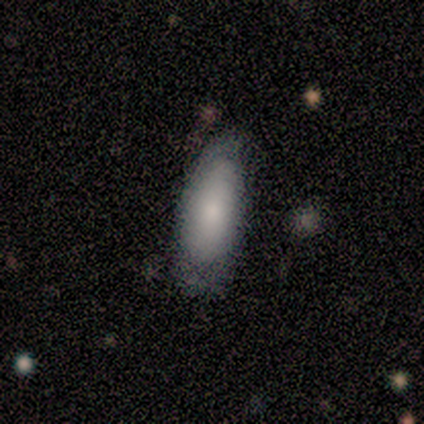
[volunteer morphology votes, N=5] Smooth or featured?
  - smooth: 60% *
  - featured or disk: 40%
  - star or artifact: 0%
How rounded?
  - in between: 100% *
  - round: 0%
  - cigar-shaped: 0%
Merging?
  - none: 60% *
  - minor disturbance: 40%
  - major disturbance: 0%
  - merger: 0%